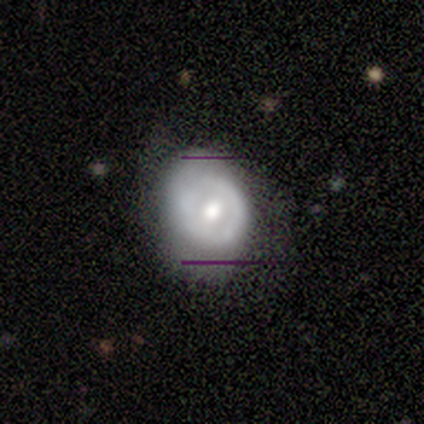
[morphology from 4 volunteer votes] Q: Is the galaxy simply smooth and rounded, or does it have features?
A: smooth — 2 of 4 (50%, tied with featured or disk).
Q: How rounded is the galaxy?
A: in between — 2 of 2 (100%).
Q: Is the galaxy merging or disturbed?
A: none — 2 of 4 (50%, tied with minor disturbance).